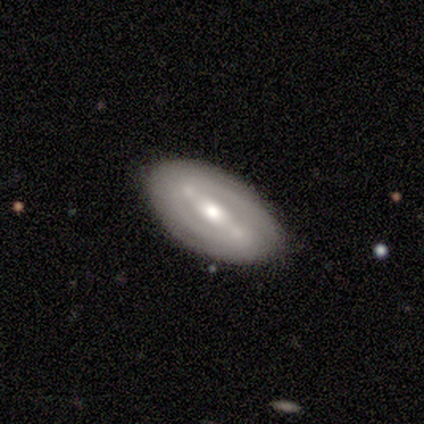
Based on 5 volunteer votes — Morphology: type=featured or disk (100%); edge-on=no (100%); bar=strong (60%); spiral arms=yes (80%); winding=tight (100%); arm count=2 (50%, tied with can't tell); bulge=moderate (40%, tied with small); merging=none (100%).